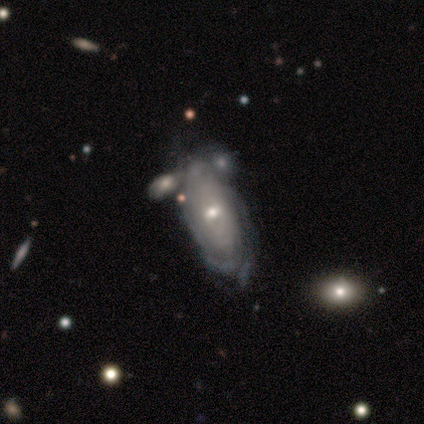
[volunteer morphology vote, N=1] featured or disk 100%, smooth 0%, star or artifact 0%. Down the decision tree: edge-on disk — no (100%); bar — no (100%); spiral arms — yes (100%); spiral arm count — can't tell (100%); spiral winding — medium (100%); bulge size — moderate (100%); merging — none (100%).